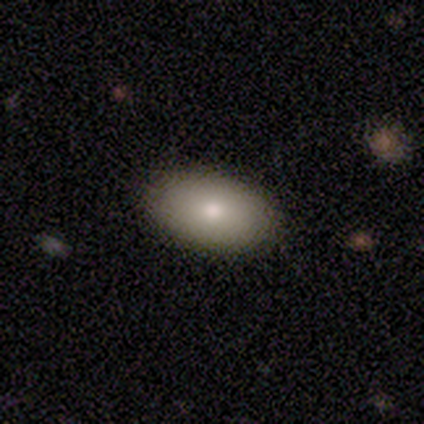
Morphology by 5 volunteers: Smooth or featured? smooth (80%)
How rounded? in between (100%)
Merging? none (100%)